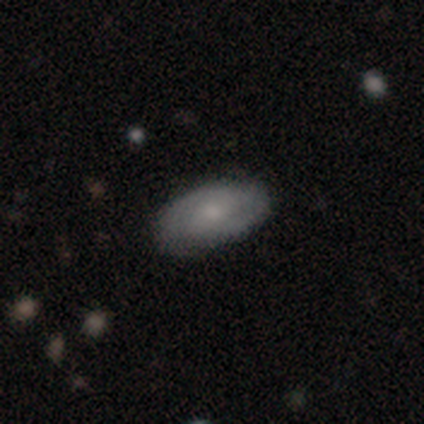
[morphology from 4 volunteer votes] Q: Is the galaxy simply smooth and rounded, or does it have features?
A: smooth — 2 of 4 (50%).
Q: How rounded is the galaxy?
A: in between — 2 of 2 (100%).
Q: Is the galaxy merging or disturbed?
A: none — 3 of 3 (100%).